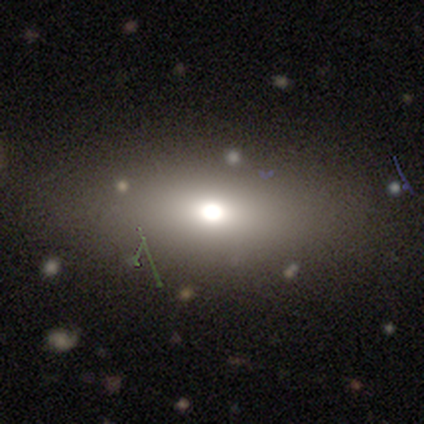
Morphology: type=smooth (40%, tied with star or artifact); roundness=in between (100%); merging=none (67%).